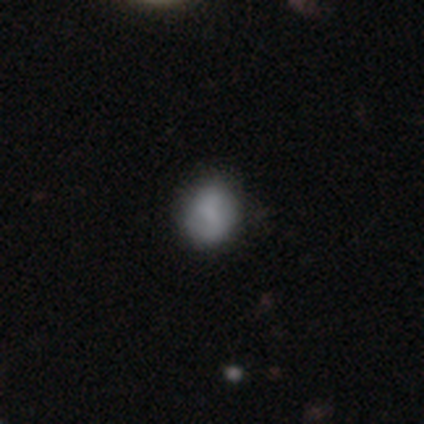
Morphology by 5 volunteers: A smooth galaxy with no disk features (100%) that is round (100%).

Vote fractions:
- Smooth or featured? smooth: 100% / featured or disk: 0% / star or artifact: 0%
- How rounded? round: 100% / in between: 0% / cigar-shaped: 0%
- Merging? none: 80% / minor disturbance: 20% / major disturbance: 0% / merger: 0%